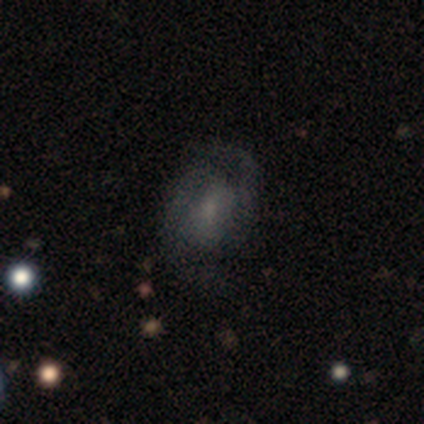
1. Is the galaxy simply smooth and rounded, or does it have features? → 50% featured or disk, 33% star or artifact, 17% smooth.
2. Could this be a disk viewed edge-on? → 100% no, 0% yes.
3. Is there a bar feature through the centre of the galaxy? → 67% no, 33% weak, 0% strong.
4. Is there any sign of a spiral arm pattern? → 67% yes, 33% no.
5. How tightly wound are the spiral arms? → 50% tight (tied), 50% medium (tied), 0% loose.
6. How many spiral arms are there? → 100% 2, 0% 1, 0% 3, 0% 4, 0% more than 4, 0% can't tell.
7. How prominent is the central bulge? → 67% moderate, 33% small, 0% dominant, 0% large, 0% none.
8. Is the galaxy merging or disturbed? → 100% none, 0% minor disturbance, 0% major disturbance, 0% merger.